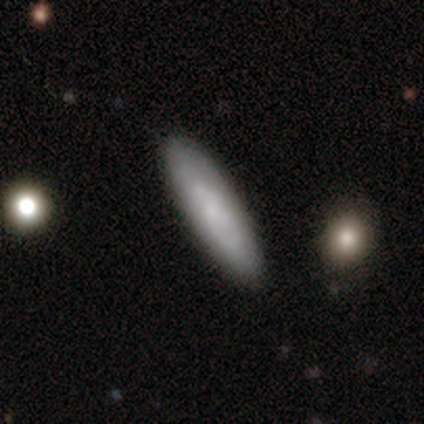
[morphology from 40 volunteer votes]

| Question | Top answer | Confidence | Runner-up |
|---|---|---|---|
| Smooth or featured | smooth | 57% | featured or disk (35%) |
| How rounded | cigar-shaped | 65% | in between (35%) |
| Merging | none | 89% | merger (5%) |